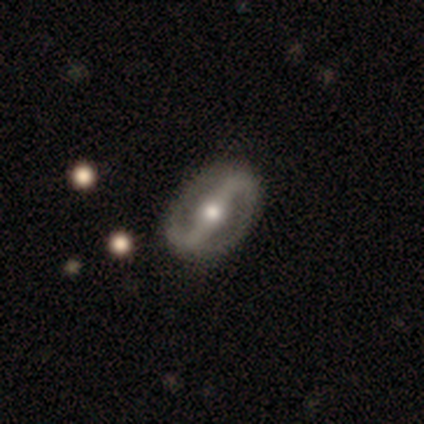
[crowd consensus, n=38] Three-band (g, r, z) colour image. It shows a featured or disk galaxy (100%) with a strong bar (71%), 2 (100%) loose (64%) spiral arms (82%) and a moderate central bulge (76%). Merging: none (68%).